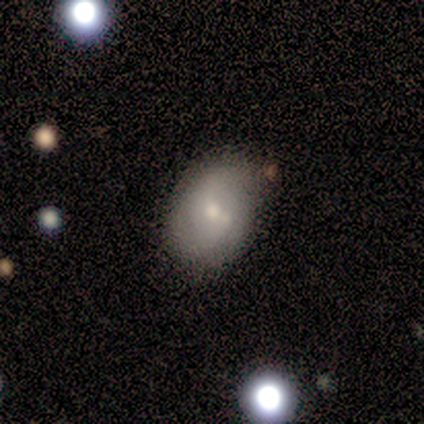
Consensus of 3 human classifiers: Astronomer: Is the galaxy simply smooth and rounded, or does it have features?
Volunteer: smooth — 67%.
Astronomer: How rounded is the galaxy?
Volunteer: round — 100%.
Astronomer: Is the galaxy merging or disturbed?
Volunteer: none — 33%, tied with minor disturbance and merger at 33%.